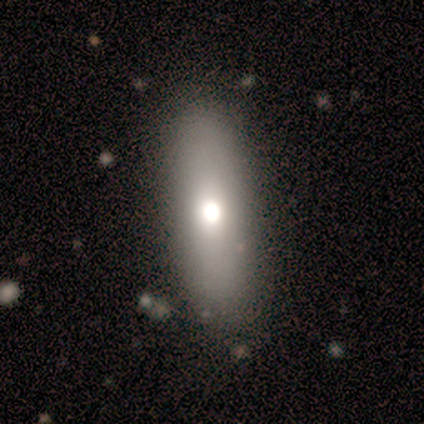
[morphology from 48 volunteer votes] Q: Smooth or featured?
A: smooth (77%); runner-up: featured or disk (21%)
Q: How rounded?
A: in between (59%); runner-up: cigar-shaped (35%)
Q: Merging?
A: none (85%); runner-up: minor disturbance (11%)